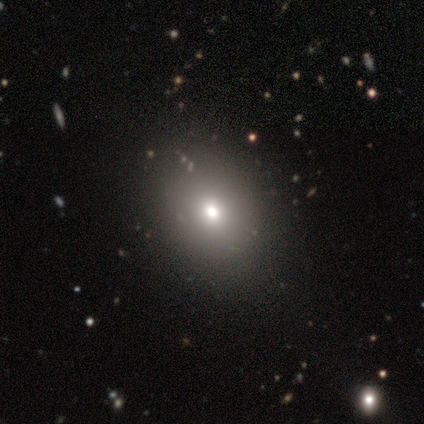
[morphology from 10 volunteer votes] Overall: smooth (80%). How rounded: in between (62%; round 38%). Merging: none (90%).